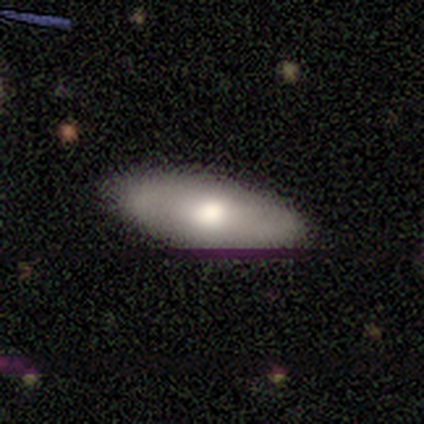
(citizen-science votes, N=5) Smooth or featured? 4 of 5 (80%) said smooth. How rounded? 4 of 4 (100%) said in between. Merging? 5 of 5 (100%) said none.